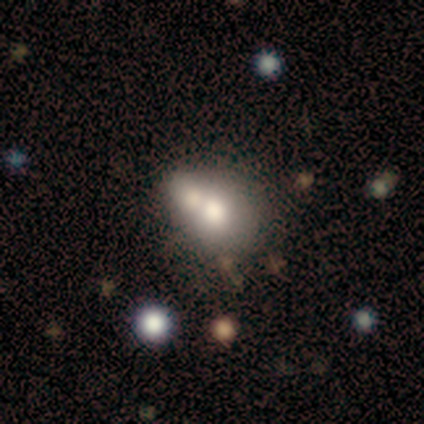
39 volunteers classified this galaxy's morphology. This appears to be a smooth galaxy with no disk features (72%) that is in between round and cigar-shaped (57%). Merging: merger (65%).